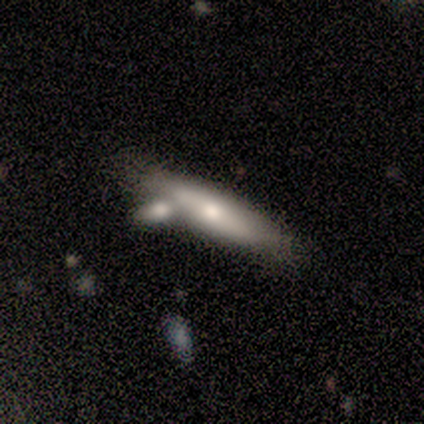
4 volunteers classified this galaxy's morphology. smooth-or-featured: smooth: 50% (tied) | featured or disk: 50% (tied) | star or artifact: 0%
  how-rounded: in between: 50% (tied) | cigar-shaped: 50% (tied) | round: 0%
  merging: minor disturbance: 50% | none: 25% | merger: 25% | major disturbance: 0%